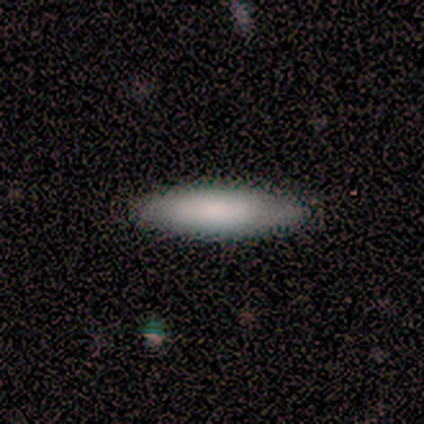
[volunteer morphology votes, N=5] A smooth galaxy with no disk features (100%) that is in between round and cigar-shaped (60%). Merging: none (80%).